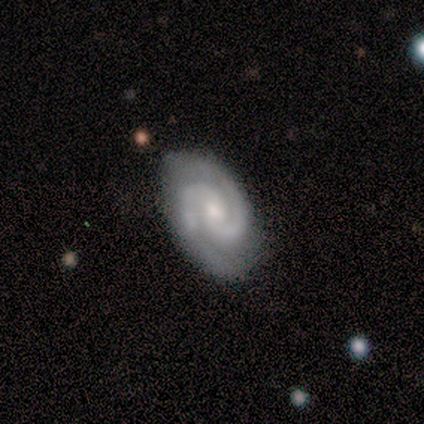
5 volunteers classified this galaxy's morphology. Smooth or featured? 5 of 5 (100%) said featured or disk. Edge-on disk? 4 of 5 (80%) said no. Bar? 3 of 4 (75%) said no. Spiral arms? 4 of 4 (100%) said yes. Spiral winding? 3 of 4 (75%) said tight. Spiral arm count? 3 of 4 (75%) said 2. Bulge size? 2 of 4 (50%, tied with small) said moderate. Merging? 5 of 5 (100%) said none.